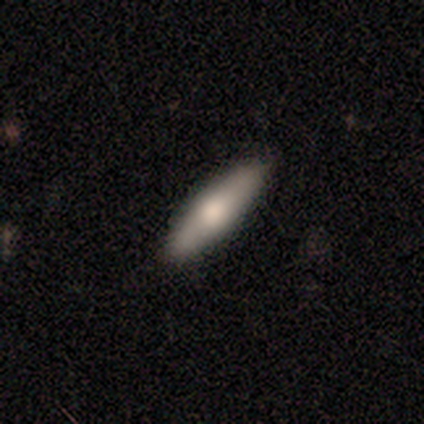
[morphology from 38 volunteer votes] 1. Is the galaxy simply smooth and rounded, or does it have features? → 58% smooth, 34% featured or disk, 8% star or artifact.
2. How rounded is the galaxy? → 55% cigar-shaped, 45% in between, 0% round.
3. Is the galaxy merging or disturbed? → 77% none, 17% minor disturbance, 3% major disturbance, 3% merger.